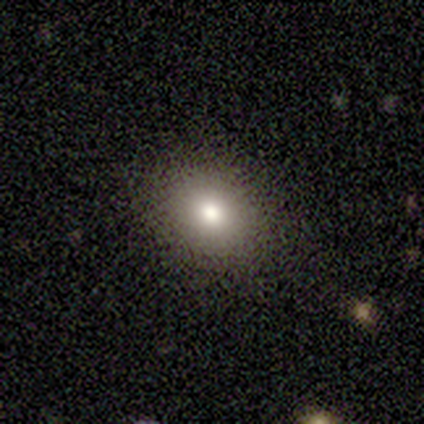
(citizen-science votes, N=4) smooth 75%, featured or disk 25%, star or artifact 0%. Down the decision tree: how rounded — round (67%); merging — none (100%).